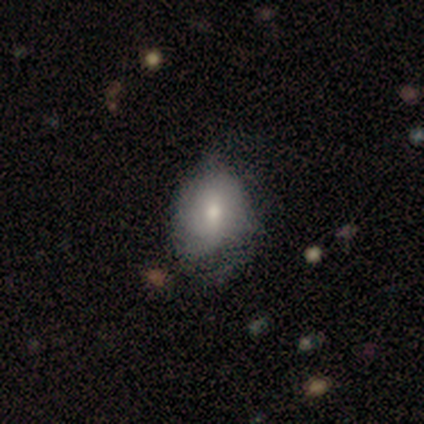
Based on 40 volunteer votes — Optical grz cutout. It shows a smooth galaxy with no disk features (62%) that is in between round and cigar-shaped (72%). Merging: none (36%).